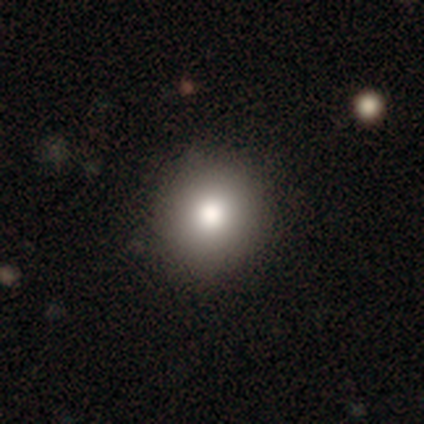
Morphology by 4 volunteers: smooth-or-featured: smooth: 50% | featured or disk: 25% | star or artifact: 25%
  how-rounded: round: 100% | in between: 0% | cigar-shaped: 0%
  merging: none: 100% | minor disturbance: 0% | major disturbance: 0% | merger: 0%